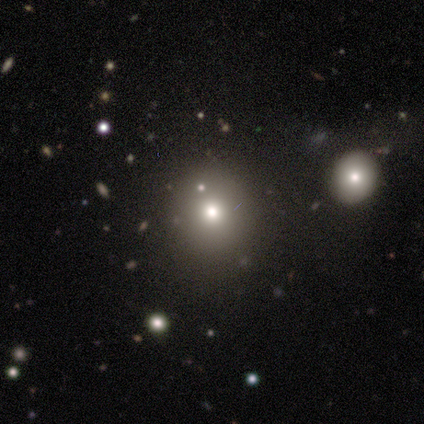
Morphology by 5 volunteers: This appears to be a smooth galaxy with no disk features (60%) that is round (100%). Merging: none (75%).